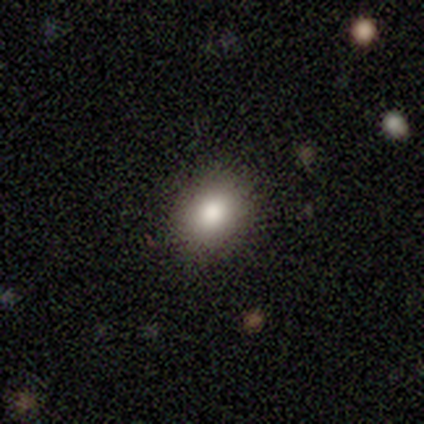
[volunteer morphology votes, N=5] Smooth or featured: smooth — 80% (star or artifact — 20%)
How rounded: round — 50% (tied with in between — 50%)
Merging: none — 100%